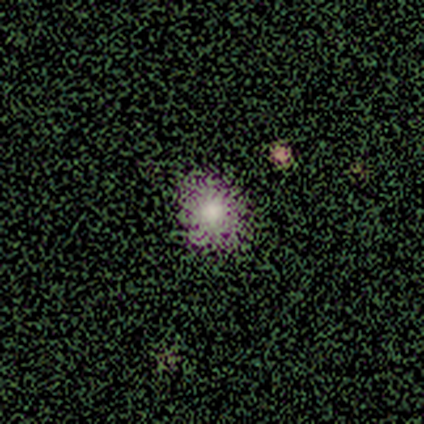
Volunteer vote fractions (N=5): This is marginally a smooth galaxy (40%, tied with featured or disk). How rounded: clearly round (100%). Merging: clearly none (100%).